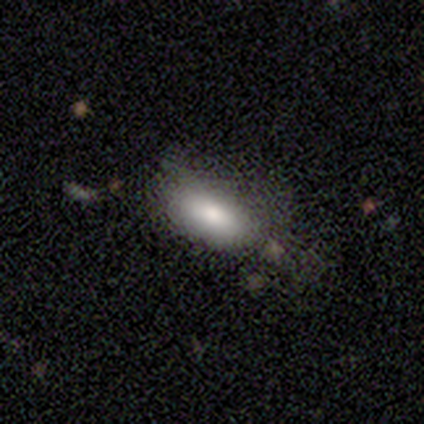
smooth 58%, featured or disk 42%, star or artifact 0%. Down the decision tree: how rounded — in between (86%); merging — minor disturbance (58%).